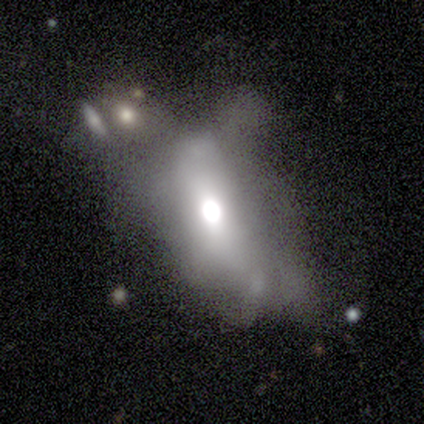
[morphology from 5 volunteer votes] smooth-or-featured: featured or disk: 60% | smooth: 40% | star or artifact: 0%
  disk-edge-on: no: 100% | yes: 0%
    bar: no: 100% | strong: 0% | weak: 0%
    has-spiral-arms: no: 100% | yes: 0%
    bulge-size: moderate: 67% | large: 33% | dominant: 0% | small: 0% | none: 0%
  merging: major disturbance: 80% | merger: 20% | none: 0% | minor disturbance: 0%